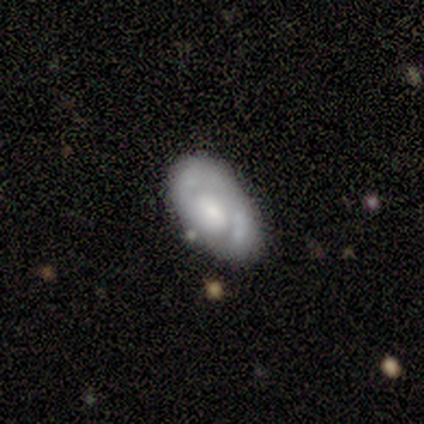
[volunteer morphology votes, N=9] smooth_or_featured: featured or disk (p=0.78) [alt: smooth p=0.22]
disk_edge_on: no (p=1.00)
bar: no (p=0.57) [alt: weak p=0.29]
has_spiral_arms: no (p=0.71) [alt: yes p=0.29]
bulge_size: moderate (p=0.43) [tied with: small p=0.43]
merging: none (p=0.78) [alt: minor disturbance p=0.11]